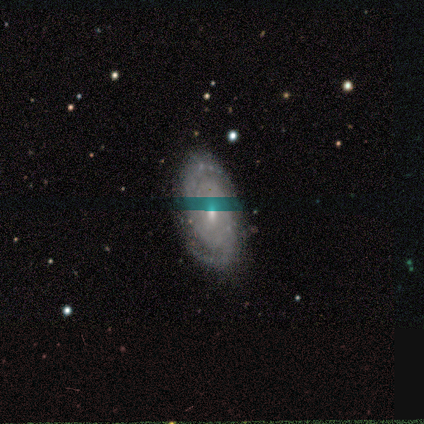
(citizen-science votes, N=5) smooth_or_featured: featured or disk (p=0.60) [alt: smooth p=0.20]
disk_edge_on: no (p=1.00)
bar: no (p=1.00)
has_spiral_arms: yes (p=1.00)
spiral_winding: tight (p=0.67) [alt: medium p=0.33]
spiral_arm_count: 2 (p=1.00)
bulge_size: small (p=1.00)
merging: none (p=1.00)